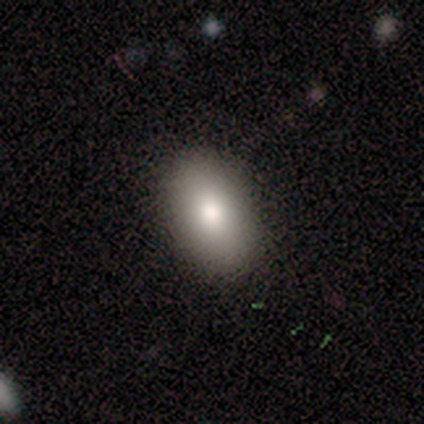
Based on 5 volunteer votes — Smooth or featured? 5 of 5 (100%) said smooth. How rounded? 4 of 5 (80%) said in between. Merging? 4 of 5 (80%) said none.